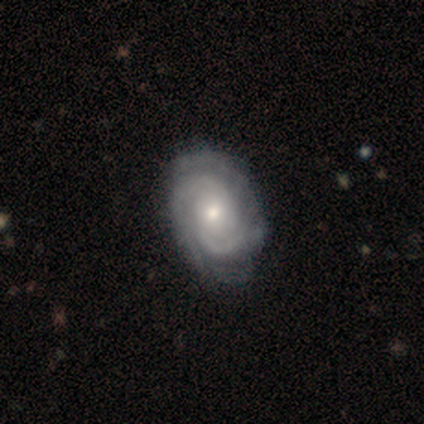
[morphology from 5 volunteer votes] Smooth or featured: featured or disk — 100%
Edge-on disk: no — 100%
Bar: no — 80% (strong — 20%)
Spiral arms: yes — 100%
Spiral winding: tight — 60% (medium — 40%)
Spiral arm count: 2 — 60% (3 — 20%)
Bulge size: moderate — 60% (small — 40%)
Merging: none — 60% (minor disturbance — 20%)